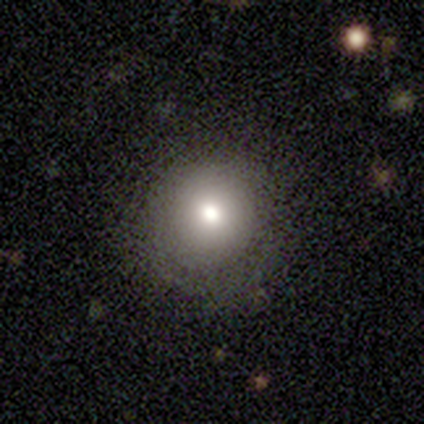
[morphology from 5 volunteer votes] Smooth or featured?
  - smooth: 100% *
  - featured or disk: 0%
  - star or artifact: 0%
How rounded?
  - round: 80% *
  - in between: 20%
  - cigar-shaped: 0%
Merging?
  - none: 80% *
  - minor disturbance: 20%
  - major disturbance: 0%
  - merger: 0%